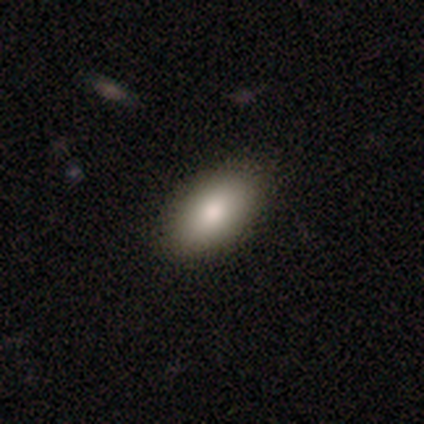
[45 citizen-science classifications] Overall: smooth (84%). How rounded: in between (87%). Merging: none (78%).